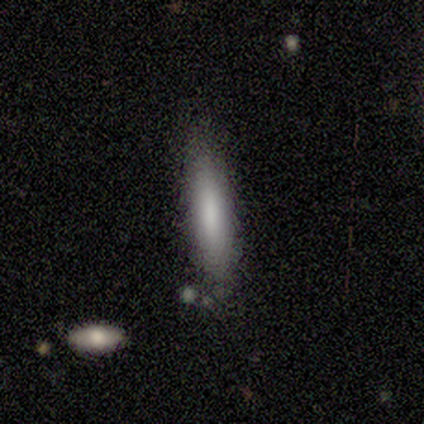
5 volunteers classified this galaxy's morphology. smooth 100%, featured or disk 0%, star or artifact 0%. Down the decision tree: how rounded — cigar-shaped (100%); merging — none (60%).